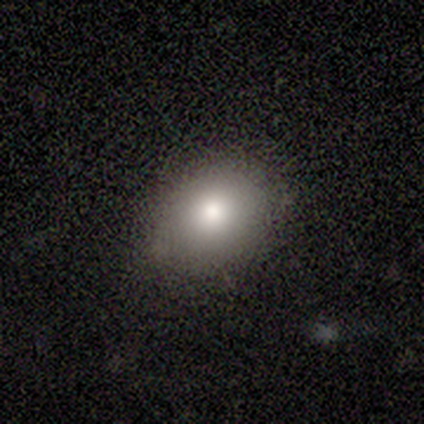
A smooth galaxy with no disk features (50%, tied with star or artifact) that is in between round and cigar-shaped (100%).

Vote fractions:
- Smooth or featured? smooth: 50% (tied) / star or artifact: 50% (tied) / featured or disk: 0%
- How rounded? in between: 100% / round: 0% / cigar-shaped: 0%
- Merging? none: 100% / minor disturbance: 0% / major disturbance: 0% / merger: 0%